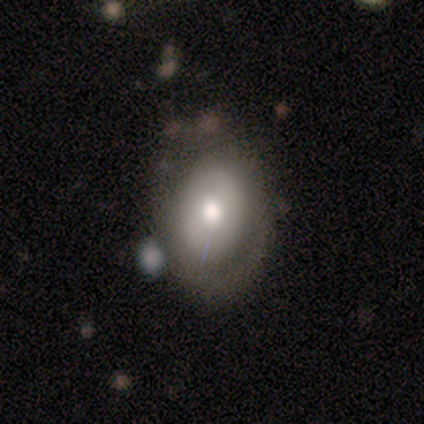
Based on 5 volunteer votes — Morphology: type=featured or disk (60%); edge-on=no (100%); bar=weak (67%); spiral arms=yes (67%); winding=tight (50%, tied with medium); arm count=2 (50%, tied with can't tell); bulge=dominant (33%, tied with large and moderate); merging=none (60%).